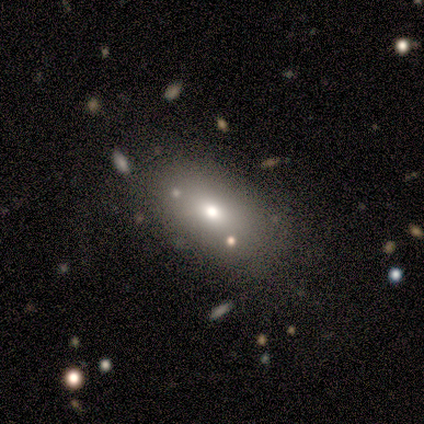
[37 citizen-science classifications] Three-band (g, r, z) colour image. It shows a smooth galaxy with no disk features (81%) that is in between round and cigar-shaped (87%). Merging: none (69%).